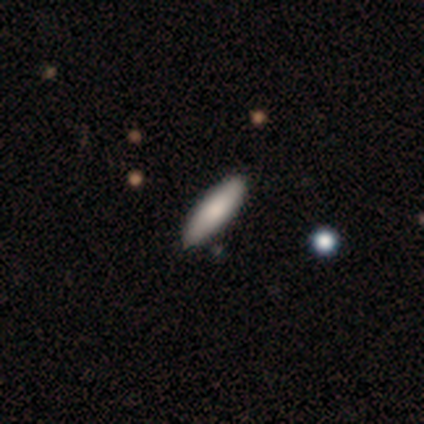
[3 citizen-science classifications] smooth_or_featured: smooth (p=1.00)
how_rounded: cigar-shaped (p=0.67) [alt: in between p=0.33]
merging: none (p=1.00)